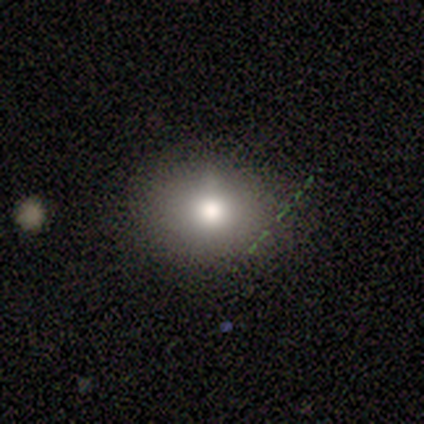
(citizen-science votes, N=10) smooth 80%, featured or disk 20%, star or artifact 0%. Down the decision tree: how rounded — round (50%, tied with in between); merging — none (90%).